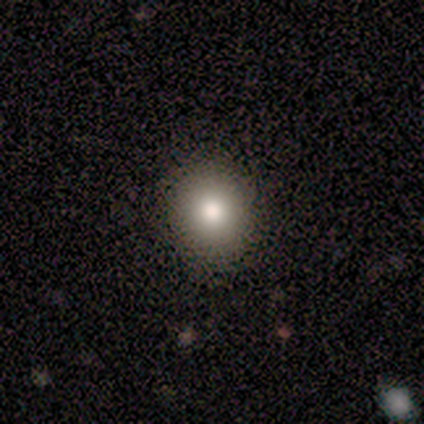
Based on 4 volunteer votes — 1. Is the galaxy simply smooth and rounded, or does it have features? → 75% smooth, 25% featured or disk, 0% star or artifact.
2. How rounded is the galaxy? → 100% round, 0% in between, 0% cigar-shaped.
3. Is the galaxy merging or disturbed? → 50% none, 25% minor disturbance, 25% major disturbance, 0% merger.